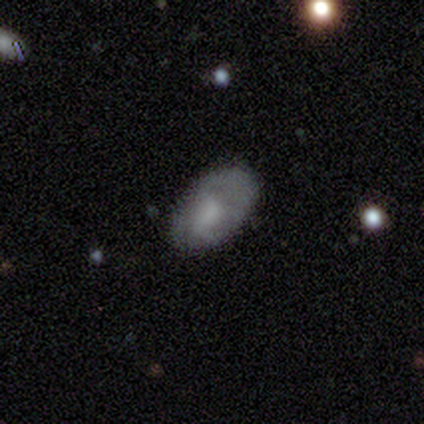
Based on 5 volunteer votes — Smooth or featured: smooth — 60% (featured or disk — 40%)
How rounded: in between — 100%
Merging: none — 80% (major disturbance — 20%)